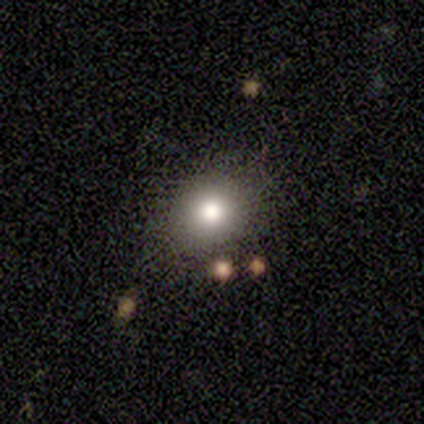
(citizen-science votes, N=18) Smooth or featured? smooth (83%)
How rounded? round (73%)
Merging? none (94%)